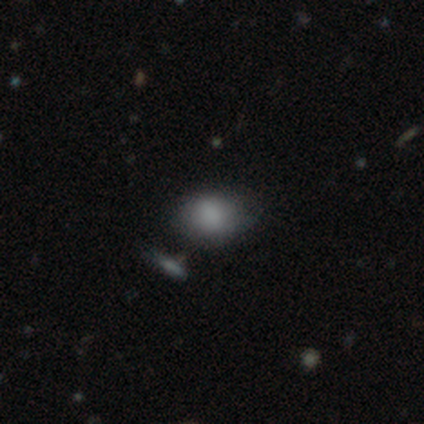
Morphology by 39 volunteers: Smooth or featured? smooth (87%)
How rounded? in between (65%)
Merging? none (44%, tied with minor disturbance)